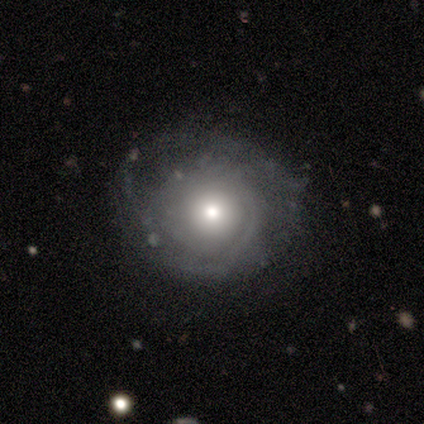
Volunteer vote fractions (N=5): Smooth or featured?
  - featured or disk: 100% *
  - smooth: 0%
  - star or artifact: 0%
Edge-on disk?
  - no: 100% *
  - yes: 0%
Bar?
  - no: 80% *
  - weak: 20%
  - strong: 0%
Spiral arms?
  - yes: 100% *
  - no: 0%
Spiral winding?
  - tight: 60% *
  - medium: 20%
  - loose: 20%
Spiral arm count?
  - can't tell: 80% *
  - 2: 20%
  - 1: 0%
  - 3: 0%
  - 4: 0%
  - more than 4: 0%
Bulge size?
  - moderate: 60% *
  - large: 20%
  - small: 20%
  - dominant: 0%
  - none: 0%
Merging?
  - none: 40% * (tied)
  - minor disturbance: 40% * (tied)
  - major disturbance: 20%
  - merger: 0%